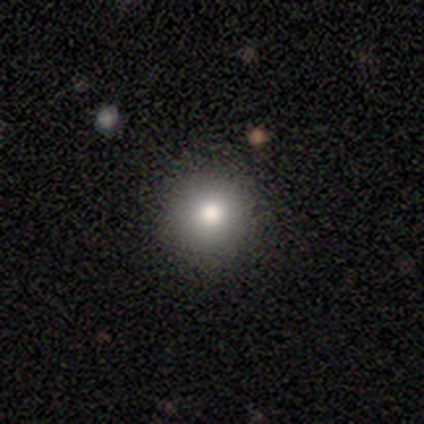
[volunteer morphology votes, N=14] Smooth or featured? 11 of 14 (79%) said smooth. How rounded? 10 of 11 (91%) said round. Merging? 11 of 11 (100%) said none.